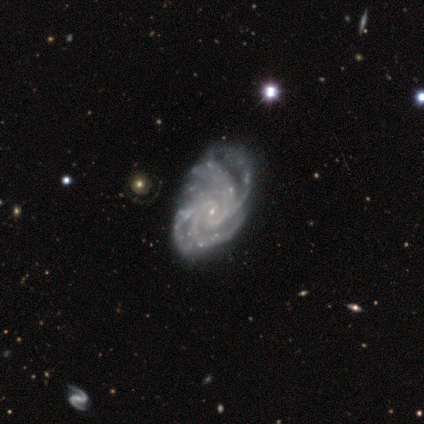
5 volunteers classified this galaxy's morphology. Overall: featured or disk (100%). Edge-on disk: no (100%). Bar: no (100%). Spiral arms: yes (100%). Spiral arm count: 4 (60%; 2 20%). Spiral winding: medium (80%). Bulge size: small (100%). Merging: none (40%, tied with minor disturbance).